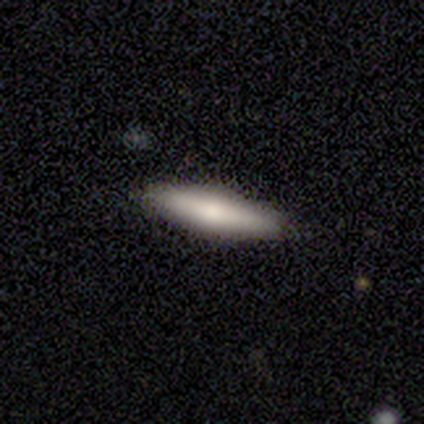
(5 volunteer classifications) Morphology: type=smooth (80%); roundness=cigar-shaped (75%); merging=none (100%).